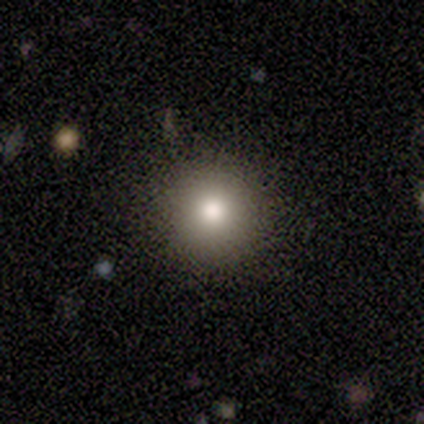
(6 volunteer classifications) smooth 67%, featured or disk 33%, star or artifact 0%. Down the decision tree: how rounded — round (100%); merging — none (83%).